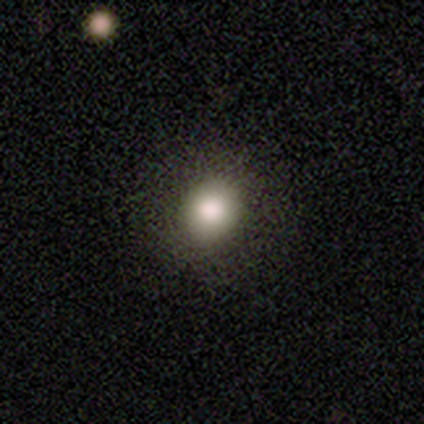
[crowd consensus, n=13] A smooth galaxy with no disk features (92%) that is round (50%, tied with in between). Merging: none (75%).